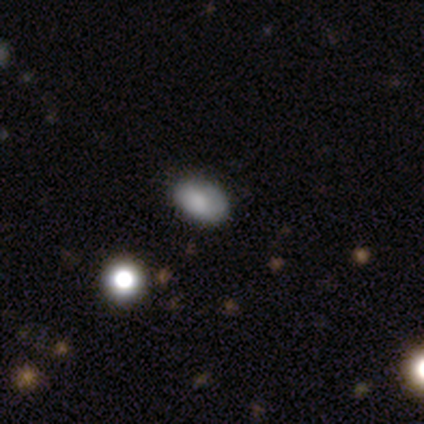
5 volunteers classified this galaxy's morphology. Smooth or featured: smooth — 100%
How rounded: in between — 100%
Merging: none — 100%